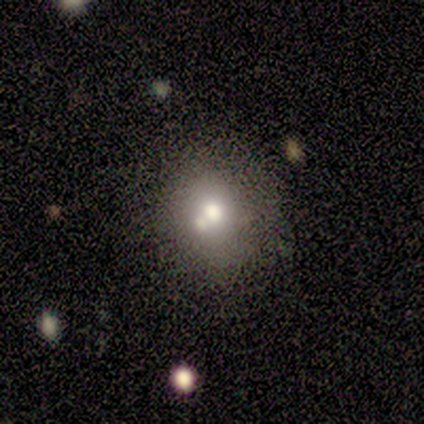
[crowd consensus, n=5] smooth-or-featured: smooth: 80% | featured or disk: 20% | star or artifact: 0%
  how-rounded: round: 75% | in between: 25% | cigar-shaped: 0%
  merging: none: 40% (tied) | minor disturbance: 40% (tied) | merger: 20% | major disturbance: 0%